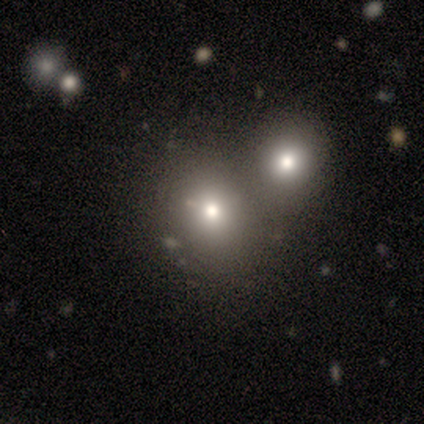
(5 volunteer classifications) Volunteers were most divided on "smooth or featured" (2-way tie): smooth: 40%, featured or disk: 40%, star or artifact: 20%. More confident: how rounded — round (100%); merging — merger (75%).